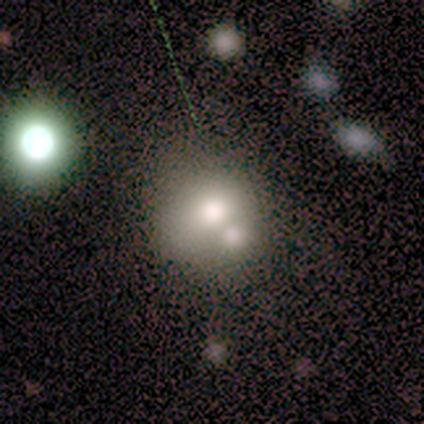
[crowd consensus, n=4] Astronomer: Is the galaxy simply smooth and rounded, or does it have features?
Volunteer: smooth — 50%, tied with star or artifact at 50%.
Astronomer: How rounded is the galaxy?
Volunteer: round — 100%.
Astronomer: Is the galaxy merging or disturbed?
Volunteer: none — 50%, tied with major disturbance at 50%.